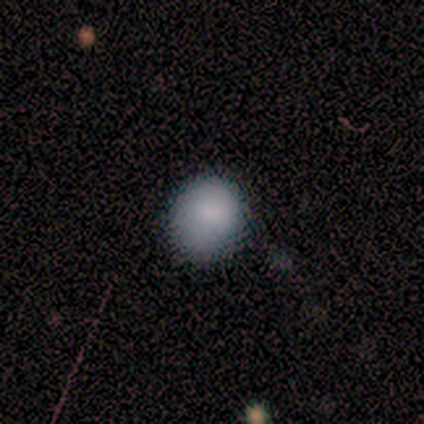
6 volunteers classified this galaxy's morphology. Volunteers were most divided on "merging": none: 83%, minor disturbance: 17%, major disturbance: 0%, merger: 0%. More confident: smooth or featured — smooth (100%); how rounded — round (100%).